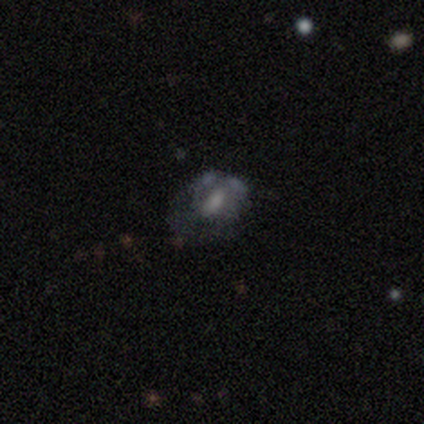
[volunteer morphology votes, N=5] Smooth or featured? featured or disk (60%)
Edge-on disk? no (67%)
Bar? weak (50%, tied with no)
Spiral arms? no (100%)
Bulge size? moderate (50%, tied with none)
Merging? none (40%, tied with merger)